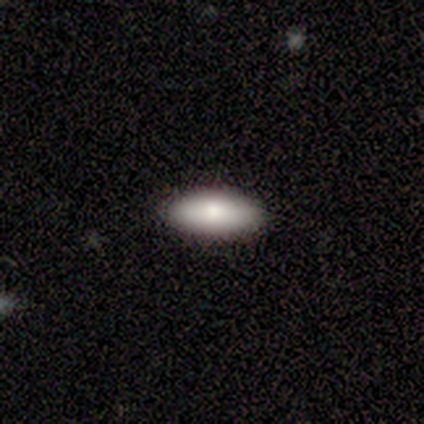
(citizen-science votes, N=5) Q: Smooth or featured?
A: smooth (100%)
Q: How rounded?
A: in between (100%)
Q: Merging?
A: none (80%); runner-up: minor disturbance (20%)